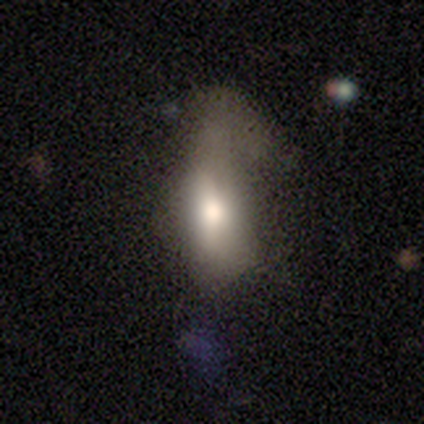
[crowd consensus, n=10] Smooth or featured? 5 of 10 (50%) said smooth. How rounded? 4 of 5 (80%) said in between. Merging? 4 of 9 (44%) said major disturbance.